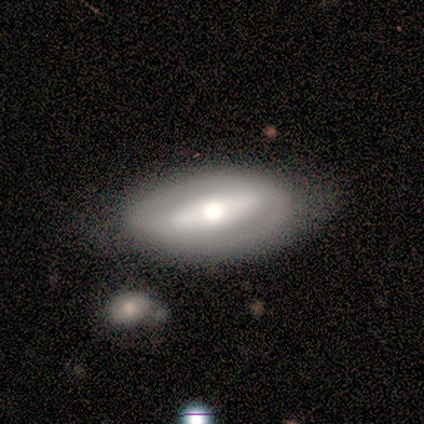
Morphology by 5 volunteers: Smooth or featured? 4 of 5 (80%) said featured or disk. Edge-on disk? 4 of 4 (100%) said no. Bar? 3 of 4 (75%) said strong. Spiral arms? 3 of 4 (75%) said no. Bulge size? 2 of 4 (50%) said large. Merging? 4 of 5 (80%) said none.